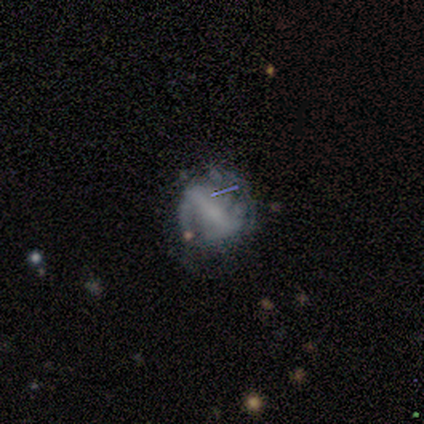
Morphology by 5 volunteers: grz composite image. It shows a featured or disk galaxy (60%) with a strong bar (67%), 2 (67%) loose (67%) spiral arms (100%) and no central bulge (67%). Merging: none (40%, tied with minor disturbance).